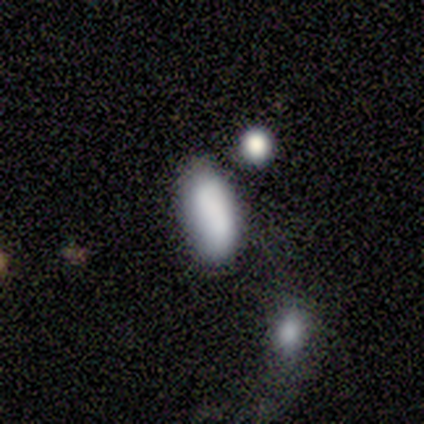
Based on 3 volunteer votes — Smooth or featured?
  - smooth: 67% *
  - featured or disk: 33%
  - star or artifact: 0%
How rounded?
  - in between: 100% *
  - round: 0%
  - cigar-shaped: 0%
Merging?
  - minor disturbance: 67% *
  - none: 33%
  - major disturbance: 0%
  - merger: 0%